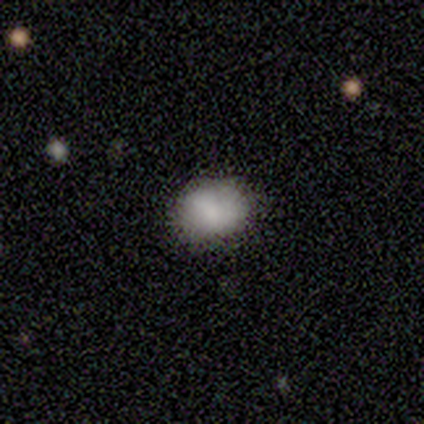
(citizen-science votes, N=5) Smooth or featured: smooth — 80% (featured or disk — 20%)
How rounded: round — 50% (tied with in between — 50%)
Merging: none — 100%